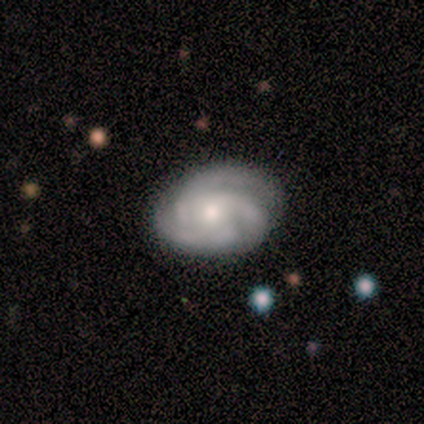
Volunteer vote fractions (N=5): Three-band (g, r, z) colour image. It shows a featured or disk galaxy (80%) with no bar (75%), 3 (75%) tight (50%, tied with medium) spiral arms (100%) and a moderate central bulge (50%, tied with small). Merging: none (100%).